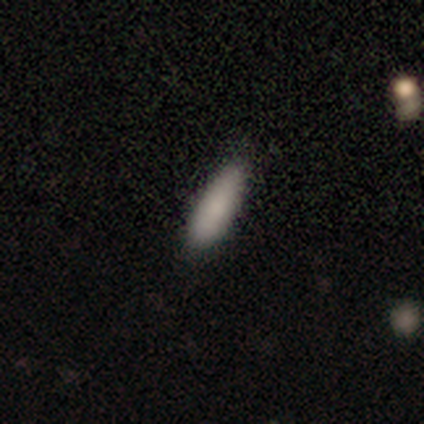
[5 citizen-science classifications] A smooth galaxy with no disk features (100%) that is in between round and cigar-shaped (60%).

Vote fractions:
- Smooth or featured? smooth: 100% / featured or disk: 0% / star or artifact: 0%
- How rounded? in between: 60% / cigar-shaped: 40% / round: 0%
- Merging? none: 100% / minor disturbance: 0% / major disturbance: 0% / merger: 0%